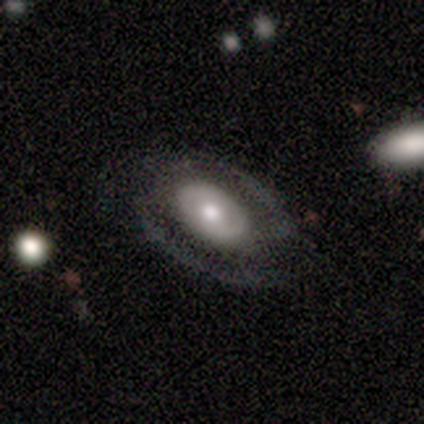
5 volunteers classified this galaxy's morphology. This is likely a smooth galaxy (60%). How rounded: likely in between (67%). Merging: clearly none (100%).